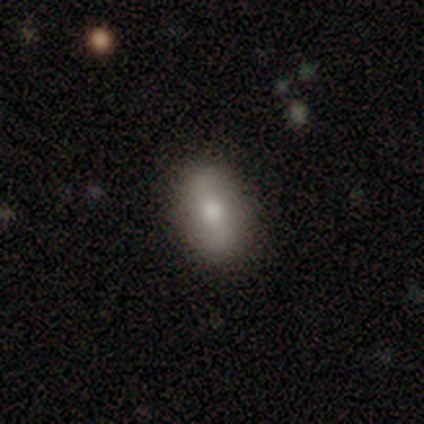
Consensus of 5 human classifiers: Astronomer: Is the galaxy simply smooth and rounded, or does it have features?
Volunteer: smooth — 100%.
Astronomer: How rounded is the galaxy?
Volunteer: in between — 100%.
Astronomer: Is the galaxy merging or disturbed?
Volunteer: none — 100%.